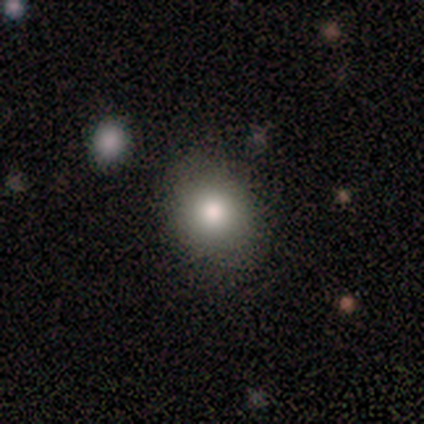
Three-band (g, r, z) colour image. It shows a smooth galaxy with no disk features (60%) that is round (100%). Merging: none (75%).